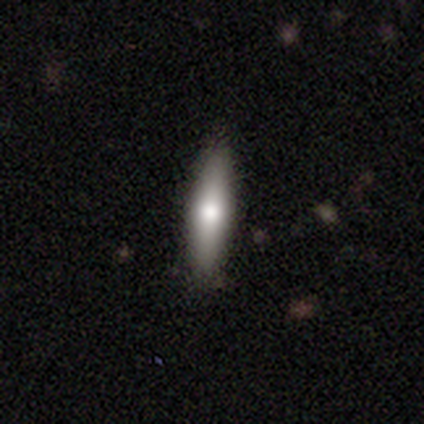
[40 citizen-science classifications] A smooth galaxy with no disk features (75%) that is cigar-shaped (70%).

Vote fractions:
- Smooth or featured? smooth: 75% / featured or disk: 22% / star or artifact: 2%
- How rounded? cigar-shaped: 70% / in between: 27% / round: 3%
- Merging? none: 85% / minor disturbance: 10% / major disturbance: 5% / merger: 0%